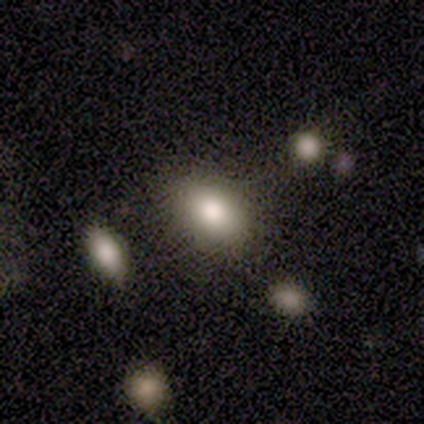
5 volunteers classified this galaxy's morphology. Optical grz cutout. It shows a smooth galaxy with no disk features (80%) that is in between round and cigar-shaped (75%). Merging: none (75%).